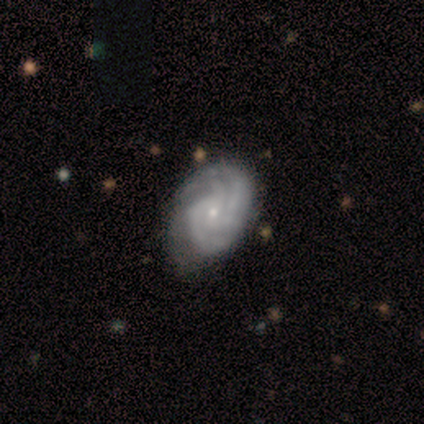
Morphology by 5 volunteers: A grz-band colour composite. It shows a featured or disk galaxy (80%) with no bar (100%), 4 (50%) tight (100%) spiral arms (100%) and a small central bulge (75%). Merging: none (80%).